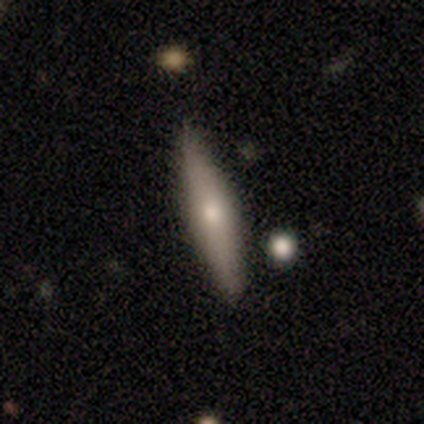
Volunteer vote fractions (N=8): smooth 50%, featured or disk 38%, star or artifact 12%. Down the decision tree: how rounded — cigar-shaped (100%); merging — none (100%).